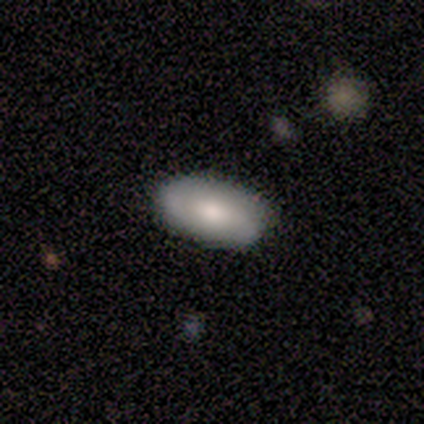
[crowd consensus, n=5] smooth-or-featured: smooth: 80% | featured or disk: 20% | star or artifact: 0%
  how-rounded: in between: 100% | round: 0% | cigar-shaped: 0%
  merging: none: 80% | merger: 20% | minor disturbance: 0% | major disturbance: 0%